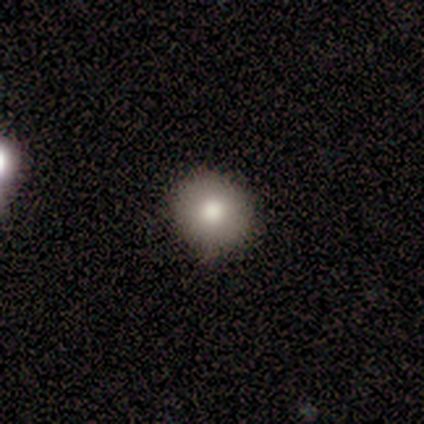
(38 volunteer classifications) Overall: smooth (71%). How rounded: round (89%). Merging: none (89%).